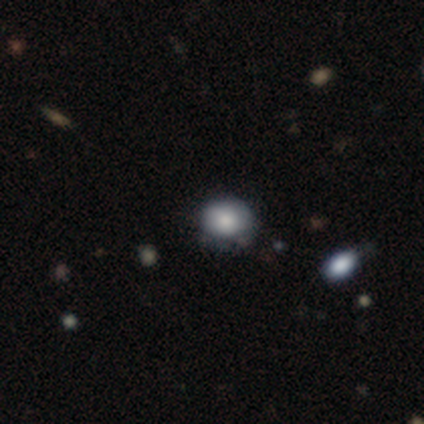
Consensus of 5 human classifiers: Overall: smooth (100%). How rounded: round (60%; in between 40%). Merging: minor disturbance (60%; none 40%).